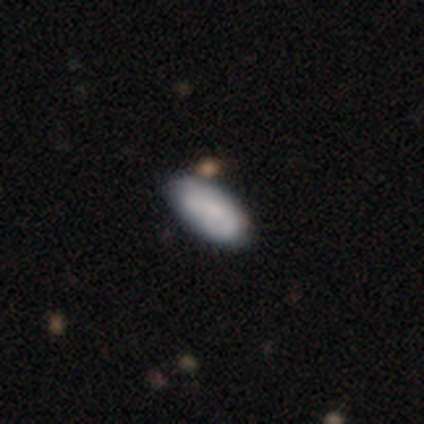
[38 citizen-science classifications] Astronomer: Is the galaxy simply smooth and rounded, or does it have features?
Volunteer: smooth — 74%.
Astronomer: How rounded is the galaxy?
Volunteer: in between — 100%.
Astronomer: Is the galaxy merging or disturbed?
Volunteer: none — 68%.